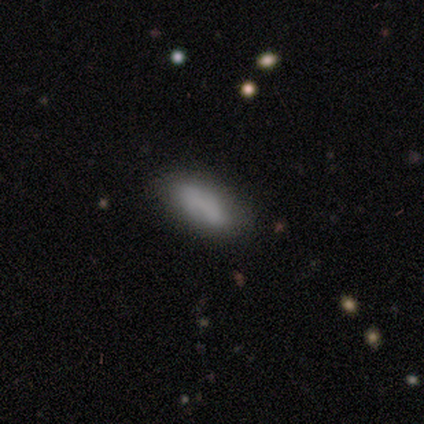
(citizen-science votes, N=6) This is clearly a smooth galaxy (83%). How rounded: likely in between (60%). Merging: clearly none (83%).